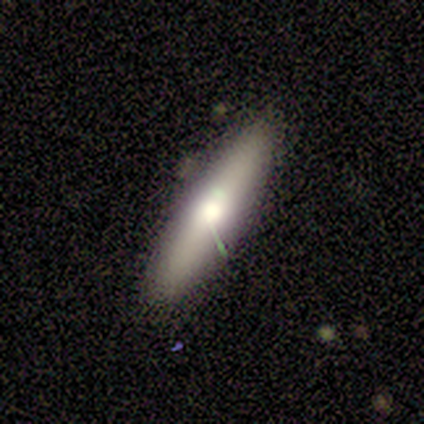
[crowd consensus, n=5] smooth 60%, featured or disk 40%, star or artifact 0%. Down the decision tree: how rounded — cigar-shaped (67%); merging — none (100%).